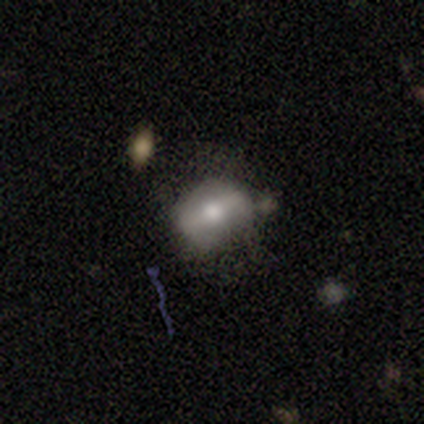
Smooth or featured? 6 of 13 (46%) said smooth. How rounded? 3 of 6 (50%, tied with in between) said round. Merging? 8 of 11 (73%) said none.